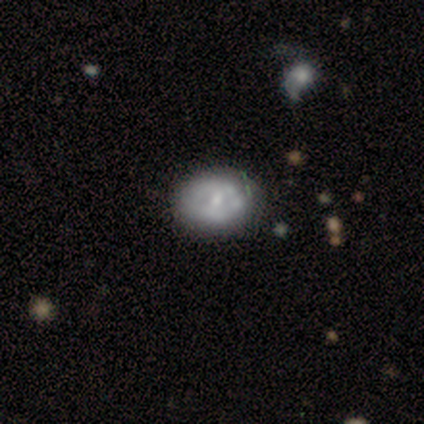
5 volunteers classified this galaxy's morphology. Overall: smooth (60%; featured or disk 40%). How rounded: round (67%; in between 33%). Merging: none (80%).